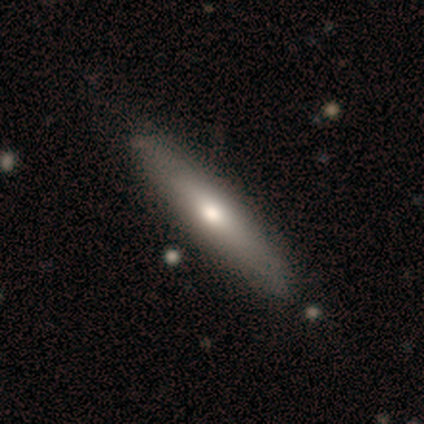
smooth-or-featured: smooth: 60% | featured or disk: 40% | star or artifact: 0%
  how-rounded: cigar-shaped: 67% | in between: 33% | round: 0%
  merging: none: 60% | minor disturbance: 40% | major disturbance: 0% | merger: 0%